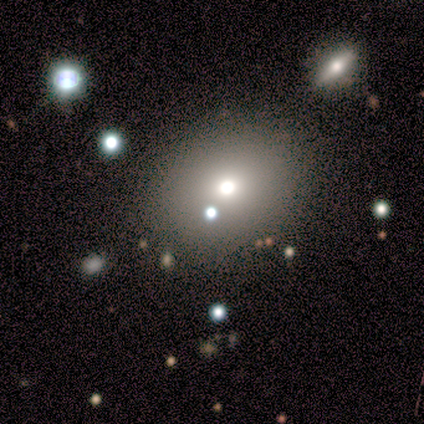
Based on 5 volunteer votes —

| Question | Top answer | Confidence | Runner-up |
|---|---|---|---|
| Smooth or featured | smooth | 40% | tied: star or artifact (40%) |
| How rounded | round | 100% | — |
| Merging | none | 67% | major disturbance (33%) |